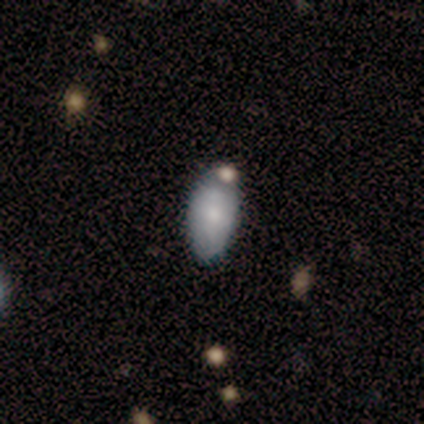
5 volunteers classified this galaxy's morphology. This is clearly a smooth galaxy (80%). How rounded: clearly in between (100%). Merging: clearly none (80%).